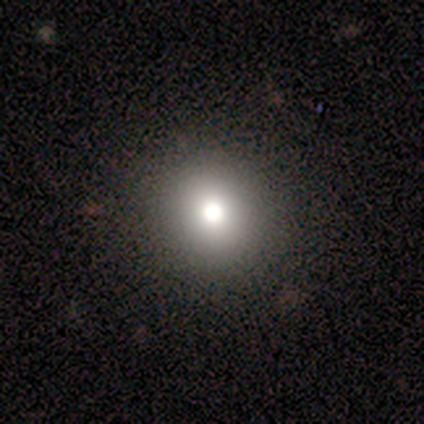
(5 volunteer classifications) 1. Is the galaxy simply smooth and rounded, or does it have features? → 40% smooth (tied), 40% featured or disk (tied), 20% star or artifact.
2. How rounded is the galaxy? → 100% round, 0% in between, 0% cigar-shaped.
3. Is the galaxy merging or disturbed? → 100% none, 0% minor disturbance, 0% major disturbance, 0% merger.